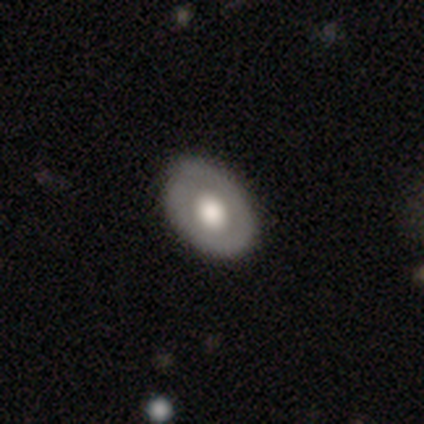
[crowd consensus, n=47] smooth 53%, featured or disk 40%, star or artifact 6%. Down the decision tree: how rounded — in between (76%); merging — none (75%).